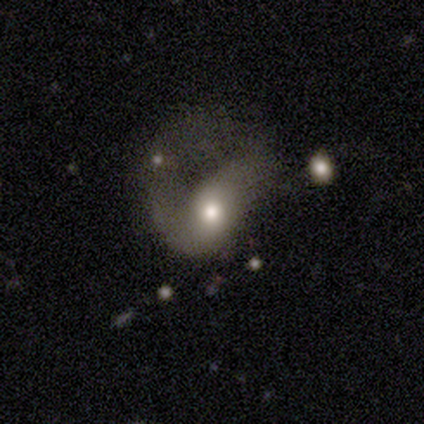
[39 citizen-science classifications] A smooth galaxy with no disk features (59%) that is in between round and cigar-shaped (74%).

Vote fractions:
- Smooth or featured? smooth: 59% / featured or disk: 28% / star or artifact: 13%
- How rounded? in between: 74% / round: 13% / cigar-shaped: 13%
- Merging? major disturbance: 76% / merger: 12% / none: 6% / minor disturbance: 6%